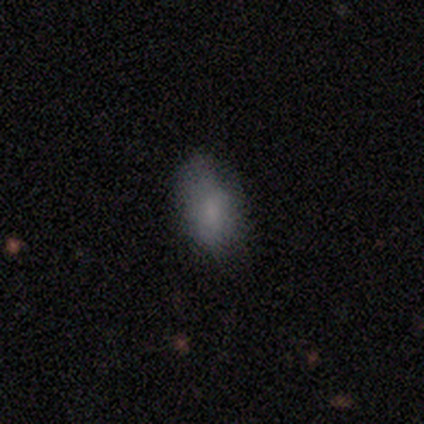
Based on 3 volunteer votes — smooth-or-featured: smooth: 100% | featured or disk: 0% | star or artifact: 0%
  how-rounded: in between: 100% | round: 0% | cigar-shaped: 0%
  merging: none: 67% | minor disturbance: 33% | major disturbance: 0% | merger: 0%